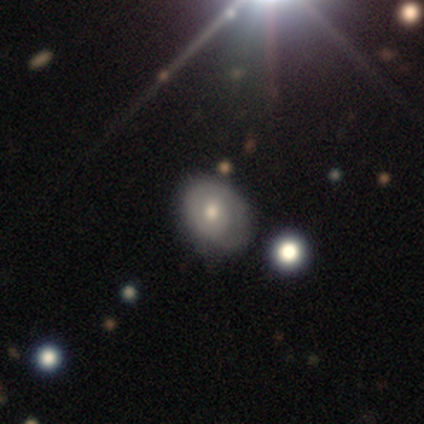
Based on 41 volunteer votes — Overall: featured or disk (51%; smooth 44%). Edge-on disk: no (100%). Bar: no (86%). Spiral arms: yes (62%; no 38%). Spiral arm count: 1 (85%). Spiral winding: tight (85%). Bulge size: moderate (90%). Merging: none (56%; minor disturbance 26%).